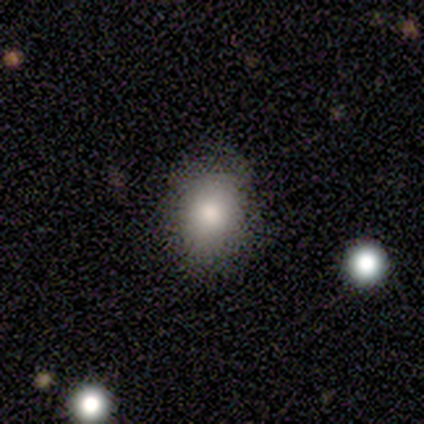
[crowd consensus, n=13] Q: Smooth or featured?
A: smooth (77%); runner-up: star or artifact (15%)
Q: How rounded?
A: in between (80%); runner-up: round (20%)
Q: Merging?
A: none (82%); runner-up: minor disturbance (9%)